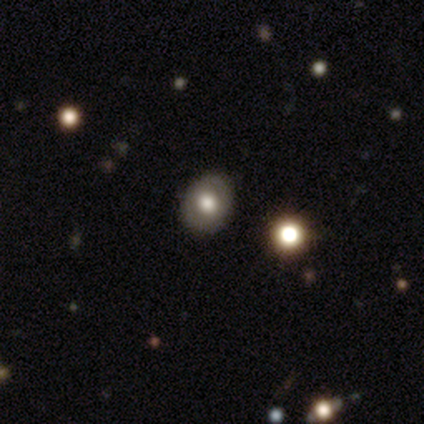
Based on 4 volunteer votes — A smooth galaxy with no disk features (50%, tied with star or artifact) that is in between round and cigar-shaped (100%). Merging: none (100%).